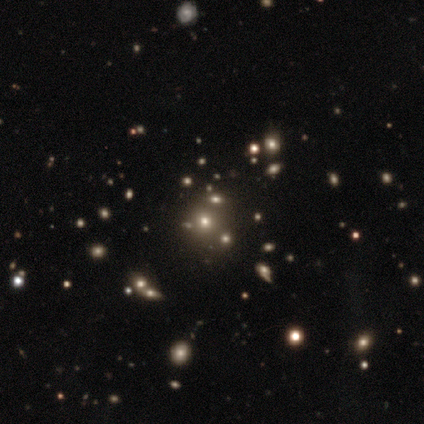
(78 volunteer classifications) Overall: smooth (47%; star or artifact 44%). How rounded: round (86%). Merging: none (32%; merger 14%).